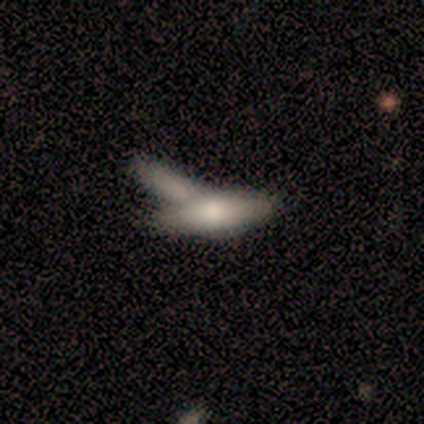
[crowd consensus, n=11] This is likely a smooth galaxy (64%). How rounded: possibly in between (57%). Merging: marginally merger (40%).